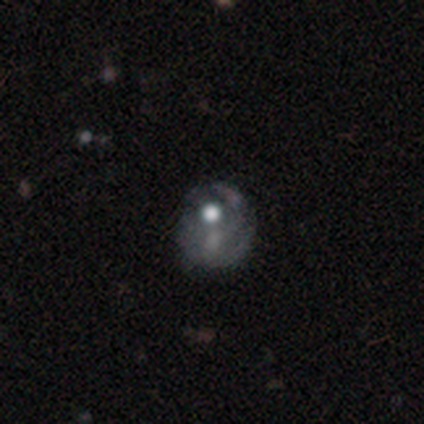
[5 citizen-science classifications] Smooth or featured? 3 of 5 (60%) said smooth. How rounded? 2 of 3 (67%) said in between. Merging? 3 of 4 (75%) said minor disturbance.